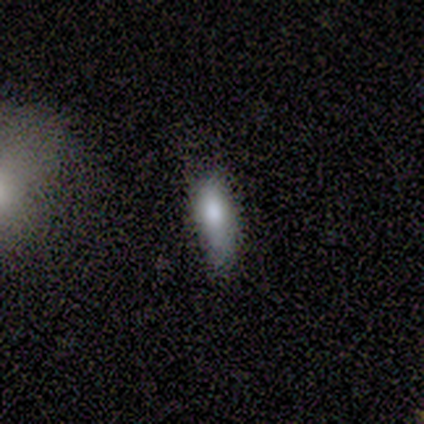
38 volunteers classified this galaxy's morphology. smooth-or-featured: smooth: 66% | featured or disk: 18% | star or artifact: 16%
  how-rounded: cigar-shaped: 52% | in between: 48% | round: 0%
  merging: none: 53% | minor disturbance: 38% | major disturbance: 9% | merger: 0%